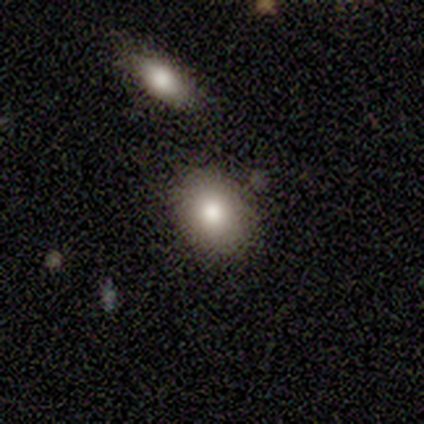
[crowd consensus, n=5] This appears to be a smooth galaxy with no disk features (80%) that is in between round and cigar-shaped (100%). Merging: none (100%).